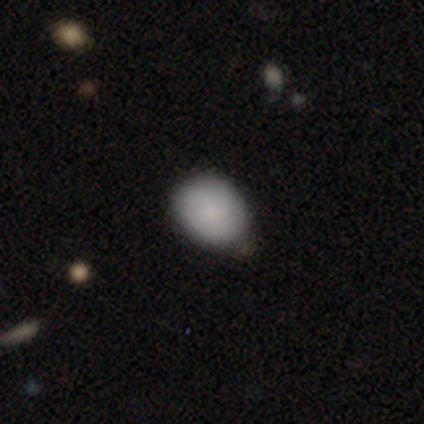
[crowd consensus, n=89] Smooth or featured? 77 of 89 (87%) said smooth. How rounded? 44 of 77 (57%) said round. Merging? 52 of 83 (63%) said none.